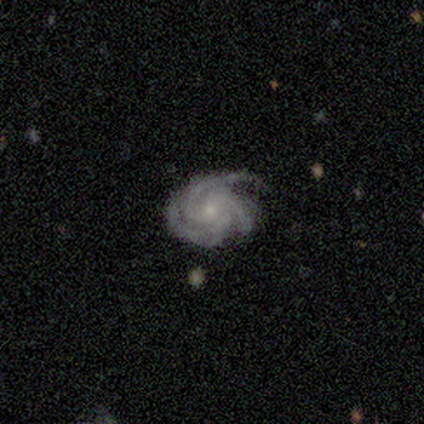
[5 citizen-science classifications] A featured or disk galaxy (100%) with no bar (80%), 3 (80%) medium (60%) spiral arms (100%) and a small central bulge (80%).

Vote fractions:
- Smooth or featured? featured or disk: 100% / smooth: 0% / star or artifact: 0%
- Edge-on disk? no: 100% / yes: 0%
- Bar? no: 80% / strong: 20% / weak: 0%
- Spiral arms? yes: 100% / no: 0%
- Spiral winding? medium: 60% / tight: 40% / loose: 0%
- Spiral arm count? 3: 80% / can't tell: 20% / 1: 0% / 2: 0% / 4: 0% / more than 4: 0%
- Bulge size? small: 80% / moderate: 20% / dominant: 0% / large: 0% / none: 0%
- Merging? none: 100% / minor disturbance: 0% / major disturbance: 0% / merger: 0%